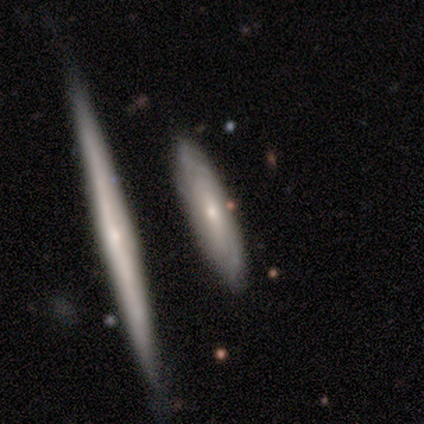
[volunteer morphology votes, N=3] Smooth or featured? 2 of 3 (67%) said featured or disk. Edge-on disk? 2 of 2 (100%) said yes. Edge-on bulge? 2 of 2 (100%) said rounded. Merging? 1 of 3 (33%, tied with minor disturbance and merger) said none.